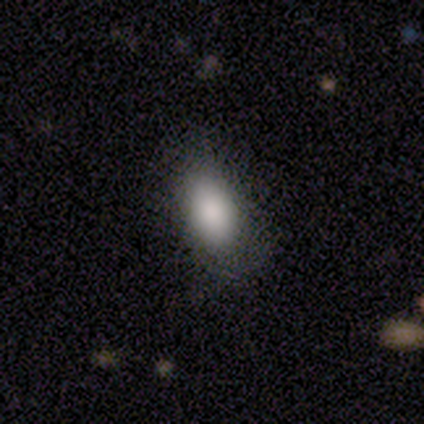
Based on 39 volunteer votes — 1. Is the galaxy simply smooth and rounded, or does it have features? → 92% smooth, 5% star or artifact, 3% featured or disk.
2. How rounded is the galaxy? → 100% in between, 0% round, 0% cigar-shaped.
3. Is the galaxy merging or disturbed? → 73% none, 16% minor disturbance, 11% major disturbance, 0% merger.